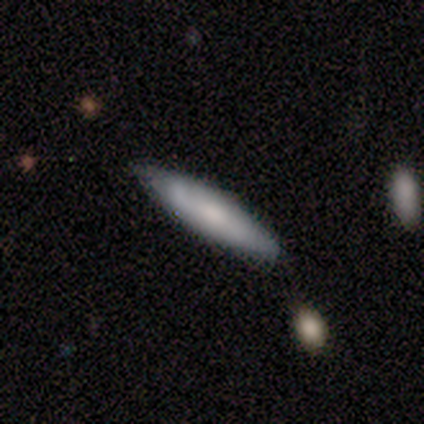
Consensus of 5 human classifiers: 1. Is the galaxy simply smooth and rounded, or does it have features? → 40% smooth (tied), 40% featured or disk (tied), 20% star or artifact.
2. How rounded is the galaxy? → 100% cigar-shaped, 0% round, 0% in between.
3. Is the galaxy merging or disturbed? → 100% none, 0% minor disturbance, 0% major disturbance, 0% merger.